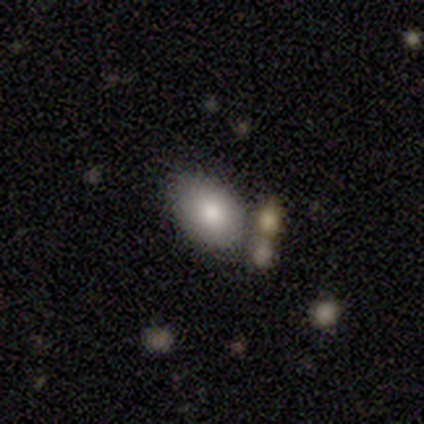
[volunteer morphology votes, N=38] Smooth or featured? smooth (82%)
How rounded? in between (61%)
Merging? none (71%)